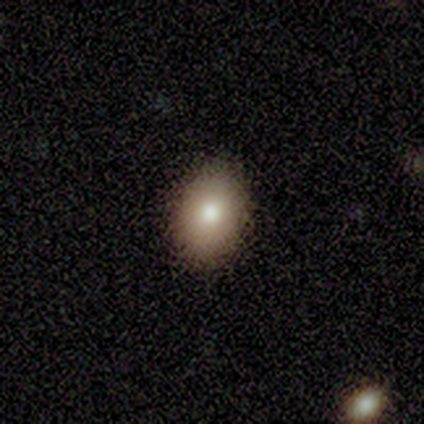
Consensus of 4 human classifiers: Morphology: type=smooth (75%); roundness=in between (67%); merging=none (75%).